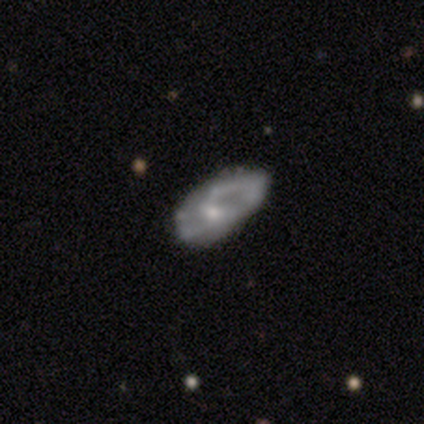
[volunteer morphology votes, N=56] Smooth or featured?
  - featured or disk: 77% *
  - smooth: 23%
  - star or artifact: 0%
Edge-on disk?
  - no: 95% *
  - yes: 5%
Bar?
  - no: 68% *
  - weak: 27%
  - strong: 5%
Spiral arms?
  - yes: 63% *
  - no: 37%
Spiral winding?
  - medium: 62% *
  - tight: 19%
  - loose: 19%
Spiral arm count?
  - 2: 73% *
  - can't tell: 19%
  - 1: 8%
  - 3: 0%
  - 4: 0%
  - more than 4: 0%
Bulge size?
  - small: 51% *
  - moderate: 44%
  - none: 5%
  - dominant: 0%
  - large: 0%
Merging?
  - none: 46% *
  - major disturbance: 32%
  - minor disturbance: 18%
  - merger: 4%